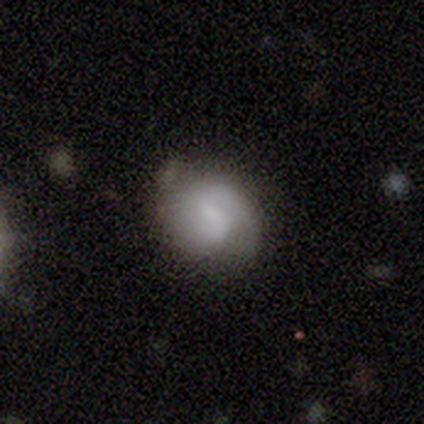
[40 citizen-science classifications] A featured or disk galaxy (48%) with a weak bar (50%), 2 (69%) medium (44%) spiral arms (89%) and a moderate central bulge (39%). Merging: none (64%).